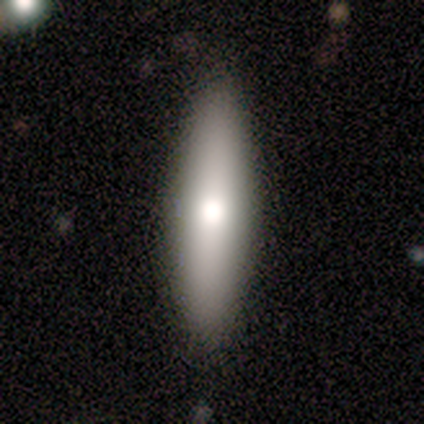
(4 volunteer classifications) This appears to be a smooth galaxy with no disk features (75%) that is in between round and cigar-shaped (67%). Merging: none (100%).